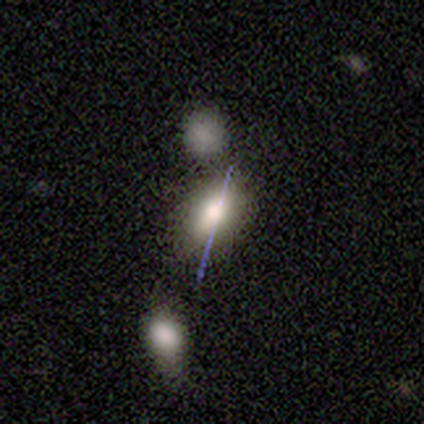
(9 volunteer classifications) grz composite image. It shows a smooth galaxy with no disk features (67%) that is in between round and cigar-shaped (83%). Merging: minor disturbance (57%).